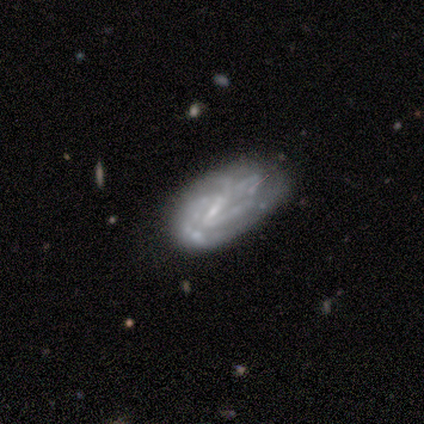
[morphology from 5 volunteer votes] A featured or disk galaxy (100%) with no bar (75%), 3 (33%, tied with 4 and can't tell) medium (100%) spiral arms (75%) and no central bulge (100%).

Vote fractions:
- Smooth or featured? featured or disk: 100% / smooth: 0% / star or artifact: 0%
- Edge-on disk? no: 80% / yes: 20%
- Bar? no: 75% / weak: 25% / strong: 0%
- Spiral arms? yes: 75% / no: 25%
- Spiral winding? medium: 100% / tight: 0% / loose: 0%
- Spiral arm count? 3: 33% (tied) / 4: 33% (tied) / can't tell: 33% (tied) / 1: 0% / 2: 0% / more than 4: 0%
- Bulge size? none: 100% / dominant: 0% / large: 0% / moderate: 0% / small: 0%
- Merging? none: 80% / major disturbance: 20% / minor disturbance: 0% / merger: 0%